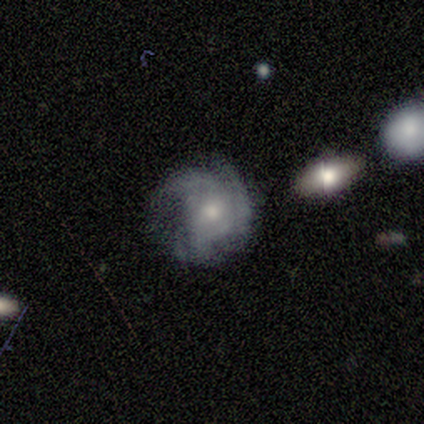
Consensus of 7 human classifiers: A featured or disk galaxy (86%) with no bar (100%), 3 (83%) tight (67%) spiral arms (100%) and a moderate central bulge (50%, tied with small). Merging: none (57%).